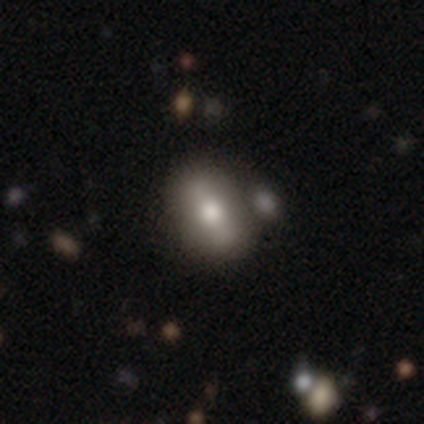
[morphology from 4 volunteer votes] A smooth galaxy with no disk features (50%, tied with featured or disk) that is in between round and cigar-shaped (50%, tied with cigar-shaped). Merging: none (75%).